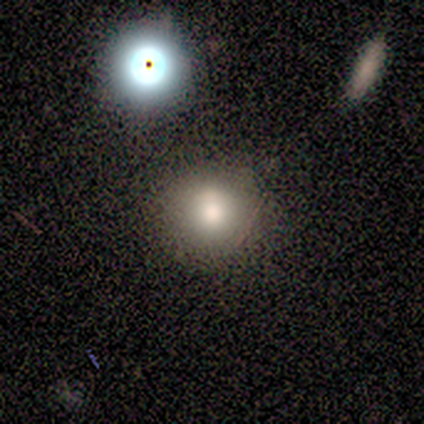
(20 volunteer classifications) Q: Smooth or featured?
A: smooth (75%); runner-up: featured or disk (20%)
Q: How rounded?
A: round (100%)
Q: Merging?
A: none (68%); runner-up: minor disturbance (26%)